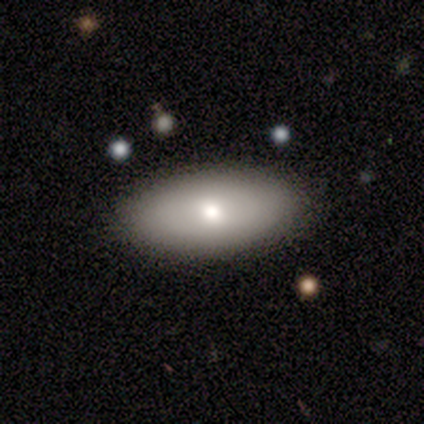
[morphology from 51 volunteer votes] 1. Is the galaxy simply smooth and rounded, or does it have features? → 69% smooth, 27% featured or disk, 4% star or artifact.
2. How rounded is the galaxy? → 97% in between, 3% round, 0% cigar-shaped.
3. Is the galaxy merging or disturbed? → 92% none, 8% minor disturbance, 0% major disturbance, 0% merger.